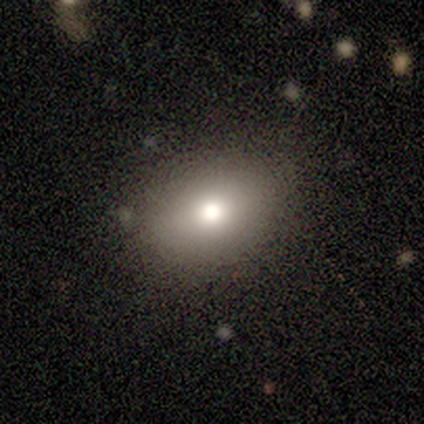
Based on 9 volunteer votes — This appears to be a smooth galaxy with no disk features (89%) that is in between round and cigar-shaped (88%). Merging: none (75%).